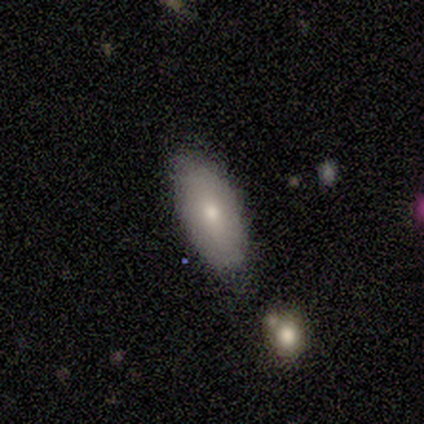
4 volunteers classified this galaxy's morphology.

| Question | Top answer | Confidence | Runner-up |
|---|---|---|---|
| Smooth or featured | smooth | 75% | featured or disk (25%) |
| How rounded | in between | 67% | cigar-shaped (33%) |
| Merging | minor disturbance | 75% | none (25%) |